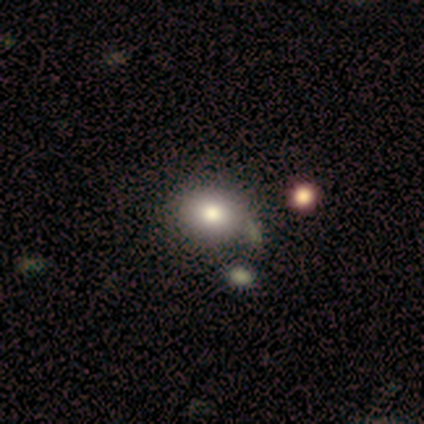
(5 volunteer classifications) Smooth or featured? smooth (80%)
How rounded? in between (75%)
Merging? none (80%)